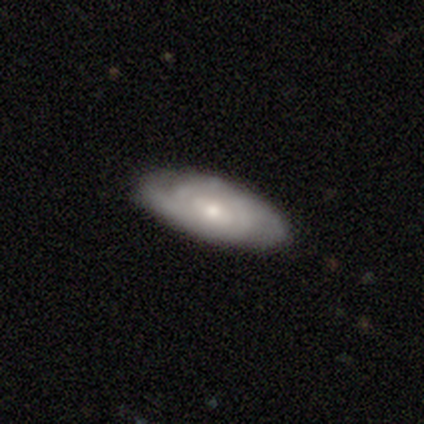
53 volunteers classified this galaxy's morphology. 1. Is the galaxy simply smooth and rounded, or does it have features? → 53% featured or disk, 40% smooth, 8% star or artifact.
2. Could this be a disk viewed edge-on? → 93% no, 7% yes.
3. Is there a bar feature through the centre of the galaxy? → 65% no, 27% weak, 8% strong.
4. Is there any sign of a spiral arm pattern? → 88% yes, 12% no.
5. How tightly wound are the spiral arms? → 83% tight, 13% medium, 4% loose.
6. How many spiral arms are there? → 48% 2, 39% can't tell, 9% 4, 4% 3, 0% 1, 0% more than 4.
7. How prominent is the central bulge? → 58% small, 38% moderate, 4% large, 0% dominant, 0% none.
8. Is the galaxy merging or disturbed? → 82% none, 14% minor disturbance, 4% major disturbance, 0% merger.